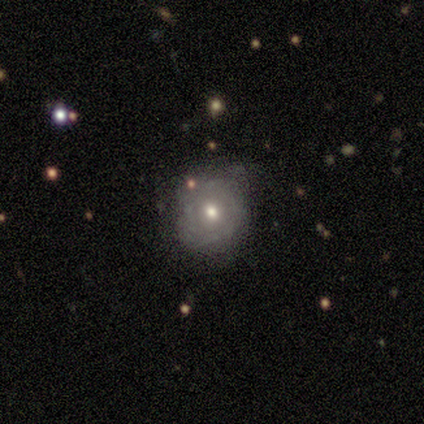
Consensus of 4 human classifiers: Q: Smooth or featured?
A: smooth (75%); runner-up: featured or disk (25%)
Q: How rounded?
A: round (100%)
Q: Merging?
A: none (50%); runner-up: minor disturbance (25%)